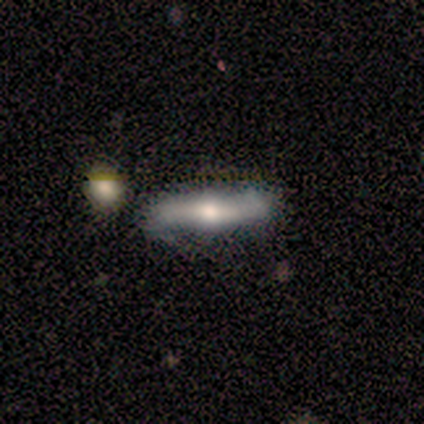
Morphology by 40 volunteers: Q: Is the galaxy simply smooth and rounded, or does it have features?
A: featured or disk — 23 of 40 (57%).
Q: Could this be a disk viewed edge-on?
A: yes — 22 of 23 (96%).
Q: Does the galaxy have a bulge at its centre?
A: rounded — 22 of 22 (100%).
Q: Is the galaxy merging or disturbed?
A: none — 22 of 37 (59%).